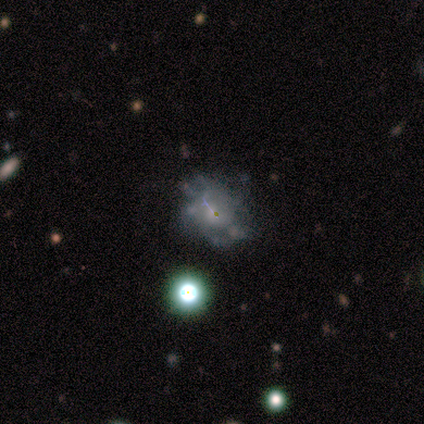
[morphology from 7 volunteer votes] Volunteers were most divided on "bar" (2-way tie): weak: 50%, no: 50%, strong: 0%; "spiral arms" (2-way tie): yes: 50%, no: 50%; "spiral winding" (3-way tie): tight: 33%, medium: 33%, loose: 33%; "spiral arm count" (3-way tie): 4: 33%, more than 4: 33%, can't tell: 33%, 1: 0%, 2: 0%, 3: 0%. Remaining: edge-on disk — no (100%); smooth or featured — featured or disk (86%); bulge size — small (83%); merging — none (43%).